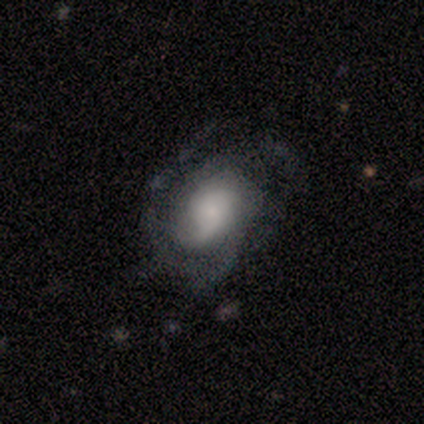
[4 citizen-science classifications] A smooth galaxy with no disk features (50%, tied with featured or disk) that is in between round and cigar-shaped (100%). Merging: none (75%).